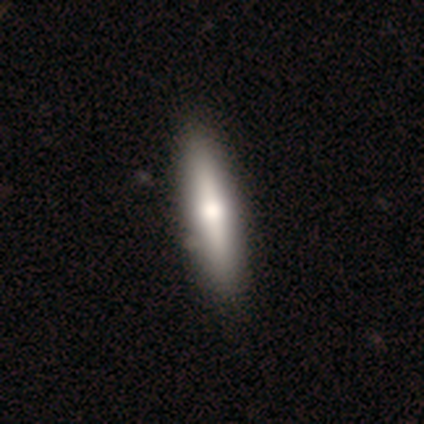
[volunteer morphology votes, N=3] Smooth or featured? featured or disk (67%)
Edge-on disk? yes (100%)
Edge-on bulge? rounded (100%)
Merging? none (100%)